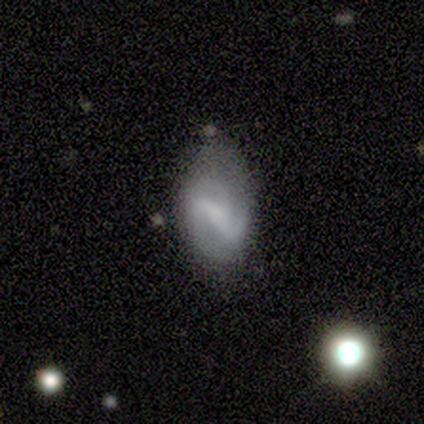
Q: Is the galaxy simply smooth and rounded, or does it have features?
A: featured or disk — 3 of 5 (60%).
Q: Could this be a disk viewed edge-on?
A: no — 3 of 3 (100%).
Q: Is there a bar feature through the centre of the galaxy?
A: strong — 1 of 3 (33%, tied with weak and no).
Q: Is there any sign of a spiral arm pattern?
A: yes — 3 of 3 (100%).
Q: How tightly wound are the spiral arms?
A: loose — 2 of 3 (67%).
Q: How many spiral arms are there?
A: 2 — 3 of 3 (100%).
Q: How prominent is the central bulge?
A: small — 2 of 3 (67%).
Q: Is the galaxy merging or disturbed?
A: none — 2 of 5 (40%, tied with major disturbance).